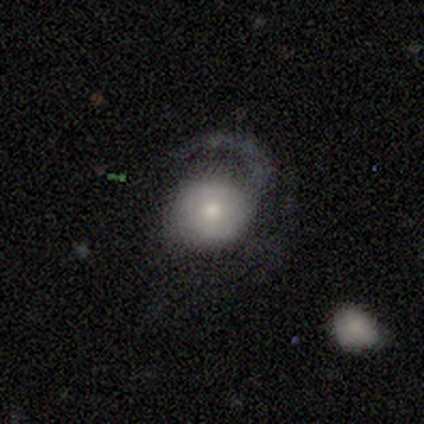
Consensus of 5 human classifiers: Volunteers were most divided on "spiral winding" (3-way tie): tight: 33%, medium: 33%, loose: 33%; "merging" (2-way tie): none: 40%, major disturbance: 40%, minor disturbance: 20%, merger: 0%. More confident: edge-on disk — no (100%); bar — no (100%); spiral arms — yes (100%); spiral arm count — 1 (100%); bulge size — moderate (100%); smooth or featured — featured or disk (60%).